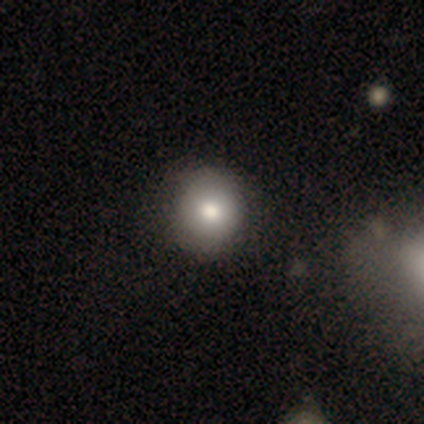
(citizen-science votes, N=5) smooth_or_featured: smooth (p=0.60) [alt: featured or disk p=0.20]
how_rounded: round (p=0.67) [alt: in between p=0.33]
merging: none (p=1.00)